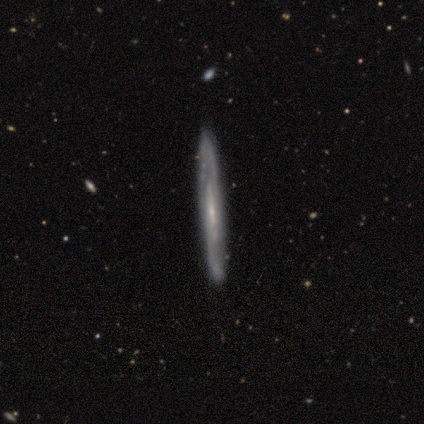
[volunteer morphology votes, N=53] smooth-or-featured: featured or disk: 87% | smooth: 9% | star or artifact: 4%
  disk-edge-on: yes: 72% | no: 28%
    edge-on-bulge: none: 67% | rounded: 24% | boxy: 9%
  merging: none: 90% | minor disturbance: 8% | merger: 2% | major disturbance: 0%